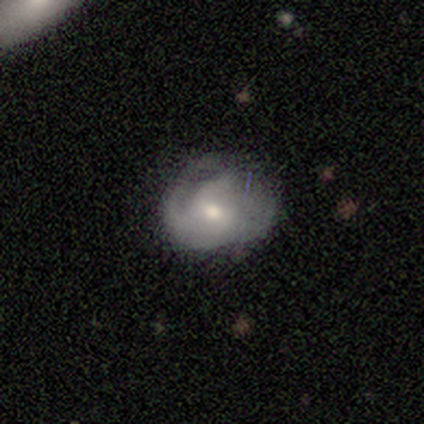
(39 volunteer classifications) Overall: featured or disk (54%; smooth 38%). Edge-on disk: no (100%). Bar: weak (57%; no 43%). Spiral arms: yes (86%). Spiral arm count: can't tell (39%; 2 33%). Spiral winding: tight (50%; loose 28%). Bulge size: moderate (71%). Merging: minor disturbance (39%; none 36%).